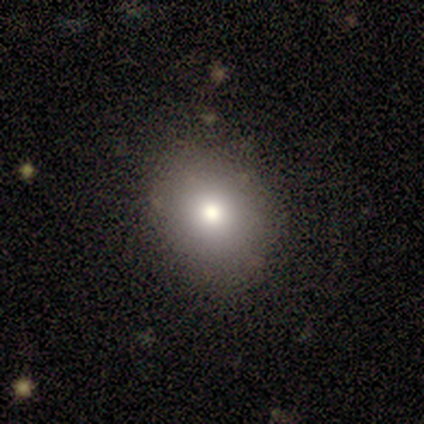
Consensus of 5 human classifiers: smooth-or-featured: smooth: 100% | featured or disk: 0% | star or artifact: 0%
  how-rounded: in between: 60% | round: 40% | cigar-shaped: 0%
  merging: none: 80% | minor disturbance: 20% | major disturbance: 0% | merger: 0%